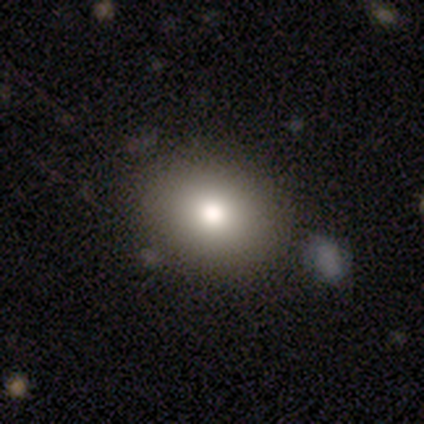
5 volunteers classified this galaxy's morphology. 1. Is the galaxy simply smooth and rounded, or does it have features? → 60% smooth, 20% featured or disk, 20% star or artifact.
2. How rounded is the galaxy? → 67% round, 33% in between, 0% cigar-shaped.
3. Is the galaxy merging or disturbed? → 100% none, 0% minor disturbance, 0% major disturbance, 0% merger.